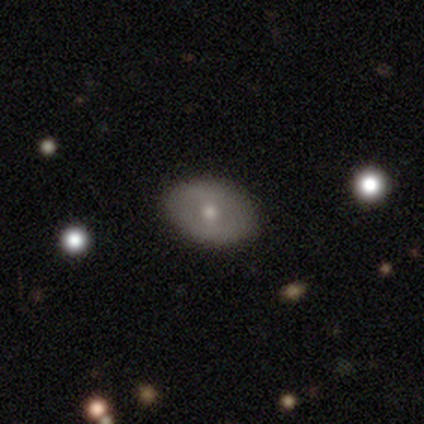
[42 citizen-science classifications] smooth_or_featured: smooth (p=0.57) [alt: featured or disk p=0.38]
how_rounded: in between (p=0.88) [alt: round p=0.12]
merging: none (p=0.78) [alt: minor disturbance p=0.03]